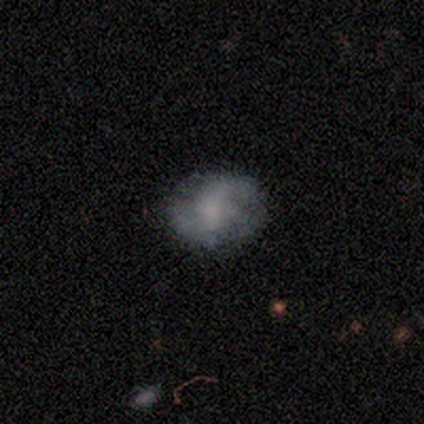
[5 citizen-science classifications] This appears to be a featured or disk galaxy (80%) with no bar (75%), 2 (50%, tied with can't tell) loose (50%) spiral arms (100%) and no central bulge (50%). Merging: none (80%).